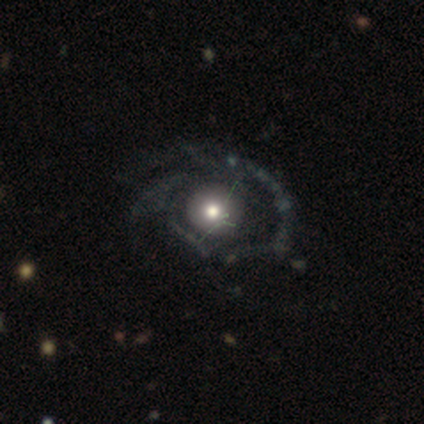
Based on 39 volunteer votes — Smooth or featured? featured or disk (72%)
Edge-on disk? no (100%)
Bar? no (82%)
Spiral arms? yes (54%)
Spiral winding? tight (40%)
Spiral arm count? 2 (33%, tied with 3)
Bulge size? moderate (61%)
Merging? none (41%)